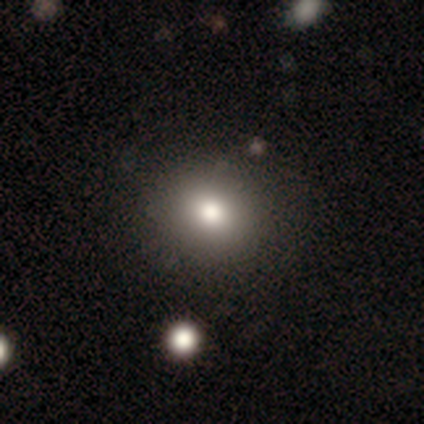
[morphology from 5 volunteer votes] smooth 60%, star or artifact 40%, featured or disk 0%. Down the decision tree: how rounded — round (67%); merging — none (100%).